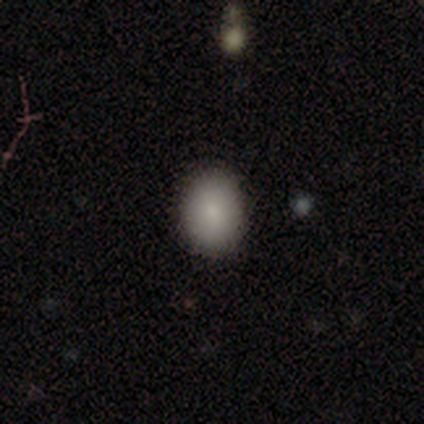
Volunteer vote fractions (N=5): Smooth or featured?
  - smooth: 100% *
  - featured or disk: 0%
  - star or artifact: 0%
How rounded?
  - in between: 100% *
  - round: 0%
  - cigar-shaped: 0%
Merging?
  - none: 80% *
  - minor disturbance: 20%
  - major disturbance: 0%
  - merger: 0%